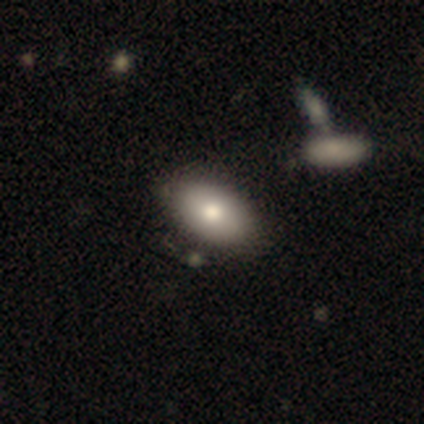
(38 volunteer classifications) Smooth or featured: smooth — 74% (featured or disk — 18%)
How rounded: in between — 89% (round — 7%)
Merging: none — 77% (minor disturbance — 11%)